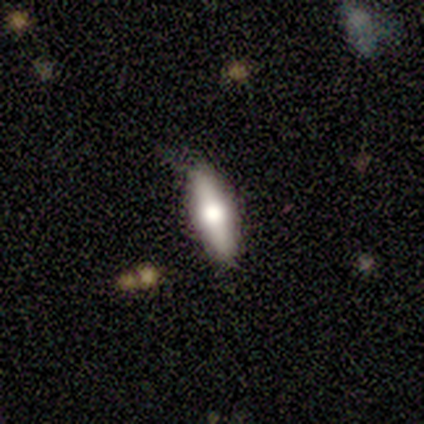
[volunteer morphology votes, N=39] Smooth or featured? smooth (54%)
How rounded? cigar-shaped (62%)
Merging? none (87%)